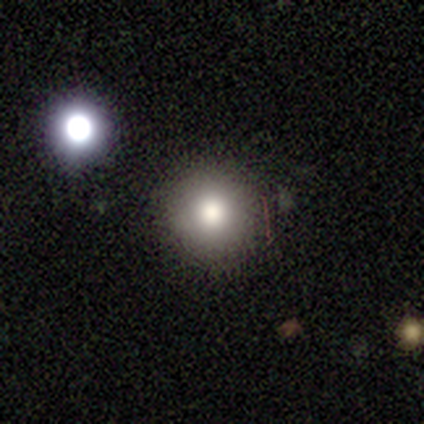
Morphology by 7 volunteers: Smooth or featured?
  - smooth: 86% *
  - star or artifact: 14%
  - featured or disk: 0%
How rounded?
  - round: 100% *
  - in between: 0%
  - cigar-shaped: 0%
Merging?
  - none: 100% *
  - minor disturbance: 0%
  - major disturbance: 0%
  - merger: 0%